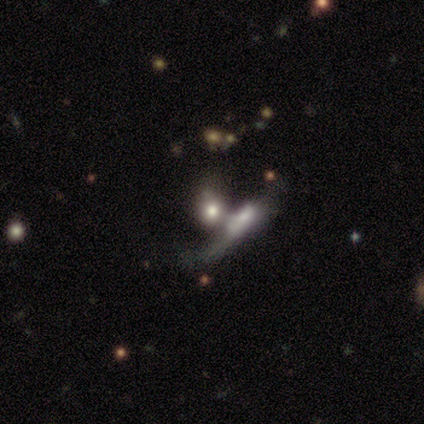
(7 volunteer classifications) Volunteers were most divided on "smooth or featured" (2-way tie): smooth: 43%, star or artifact: 43%, featured or disk: 14%. More confident: how rounded — in between (100%); merging — merger (50%).